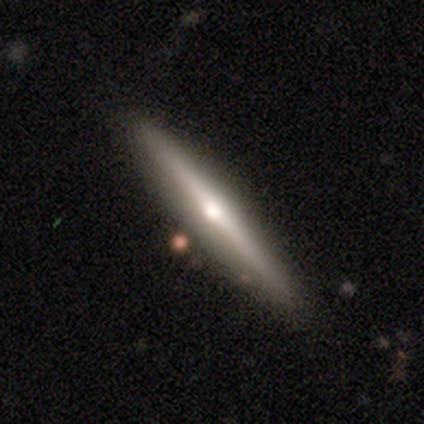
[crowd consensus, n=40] Smooth or featured: featured or disk — 57% (smooth — 40%)
Edge-on disk: yes — 100%
Edge-on bulge: rounded — 83% (none — 17%)
Merging: none — 100%